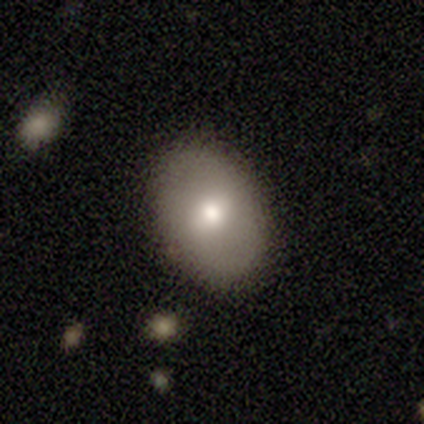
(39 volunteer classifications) This appears to be a smooth galaxy with no disk features (74%) that is in between round and cigar-shaped (69%). Merging: none (81%).